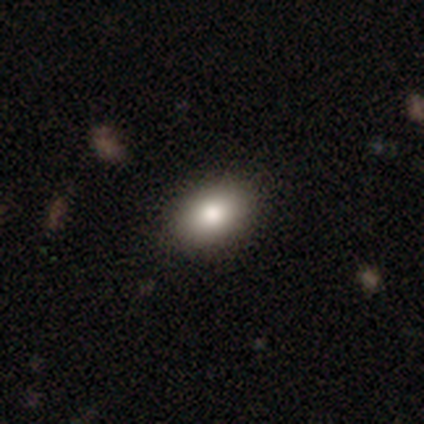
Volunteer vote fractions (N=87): Morphology: type=smooth (83%); roundness=in between (85%); merging=none (87%).